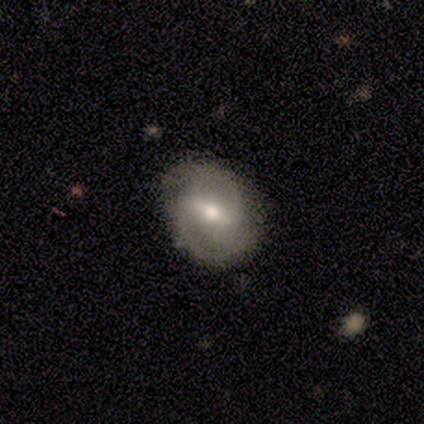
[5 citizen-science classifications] Smooth or featured: featured or disk — 60% (smooth — 20%)
Edge-on disk: no — 100%
Bar: strong — 67% (weak — 33%)
Spiral arms: yes — 100%
Spiral winding: medium — 67% (tight — 33%)
Spiral arm count: 2 — 67% (3 — 33%)
Bulge size: large — 33% (tied with moderate — 33%; small — 33%)
Merging: none — 75% (merger — 25%)